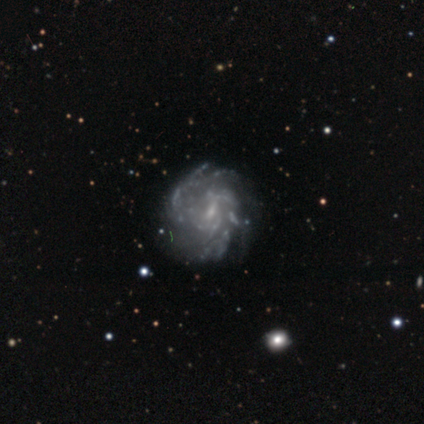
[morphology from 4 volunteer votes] Smooth or featured? featured or disk (100%)
Edge-on disk? no (100%)
Bar? weak (75%)
Spiral arms? yes (100%)
Spiral winding? tight (50%)
Spiral arm count? can't tell (75%)
Bulge size? small (100%)
Merging? none (75%)